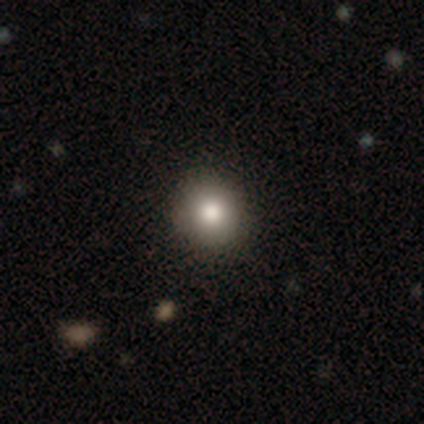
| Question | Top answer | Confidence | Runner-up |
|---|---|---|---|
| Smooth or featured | smooth | 87% | star or artifact (10%) |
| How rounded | round | 94% | in between (3%) |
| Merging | none | 97% | major disturbance (3%) |